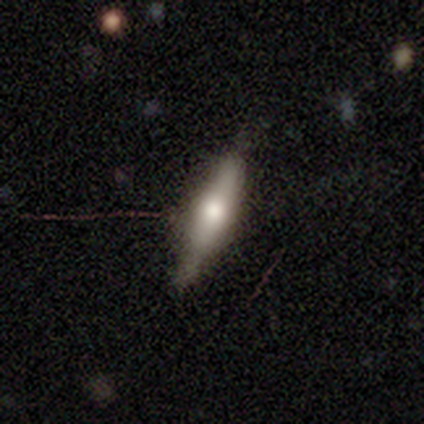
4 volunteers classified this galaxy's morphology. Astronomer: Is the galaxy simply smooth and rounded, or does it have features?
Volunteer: smooth — 75%.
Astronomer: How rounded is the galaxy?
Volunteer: cigar-shaped — 67%.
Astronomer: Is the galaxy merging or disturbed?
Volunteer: none — 100%.